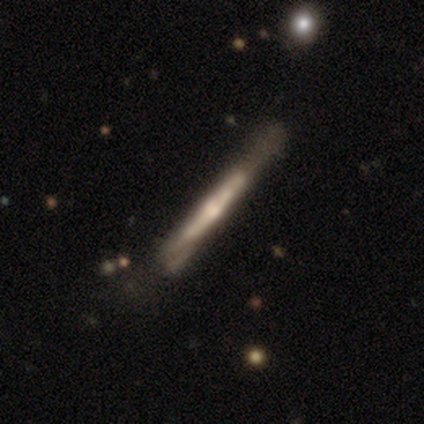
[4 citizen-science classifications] This appears to be a featured or disk galaxy (100%) viewed edge-on (100%) with no central bulge (75%). Merging: none (75%).